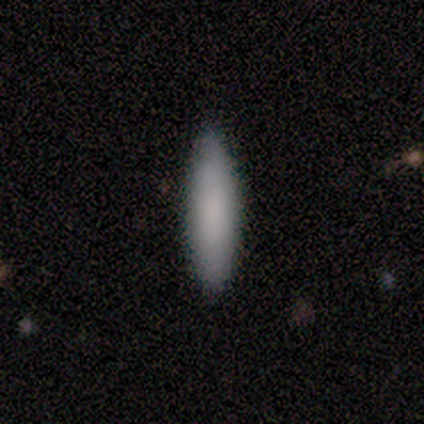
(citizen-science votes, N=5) Smooth or featured?
  - smooth: 60% *
  - featured or disk: 20%
  - star or artifact: 20%
How rounded?
  - cigar-shaped: 67% *
  - in between: 33%
  - round: 0%
Merging?
  - none: 100% *
  - minor disturbance: 0%
  - major disturbance: 0%
  - merger: 0%